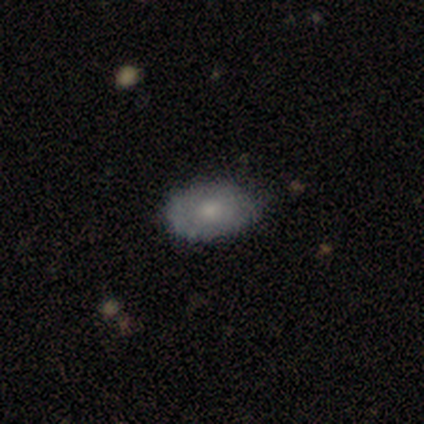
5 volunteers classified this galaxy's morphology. Volunteers were most divided on "merging": none: 60%, minor disturbance: 40%, major disturbance: 0%, merger: 0%. More confident: how rounded — in between (100%); smooth or featured — smooth (80%).